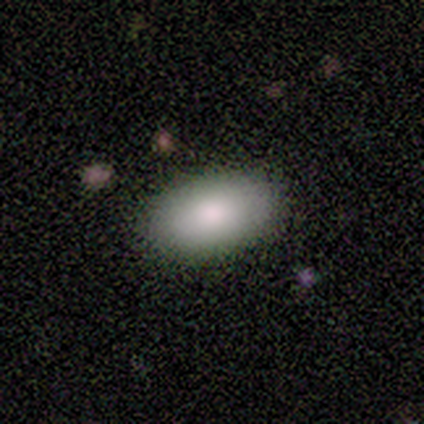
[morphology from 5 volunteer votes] Smooth or featured?
  - smooth: 100% *
  - featured or disk: 0%
  - star or artifact: 0%
How rounded?
  - in between: 100% *
  - round: 0%
  - cigar-shaped: 0%
Merging?
  - none: 80% *
  - major disturbance: 20%
  - minor disturbance: 0%
  - merger: 0%